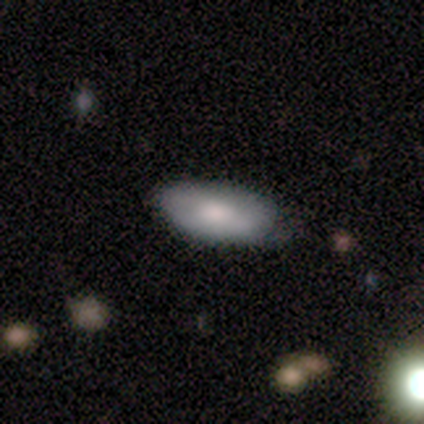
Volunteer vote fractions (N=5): This appears to be a smooth galaxy with no disk features (80%) that is in between round and cigar-shaped (75%). Merging: none (60%).